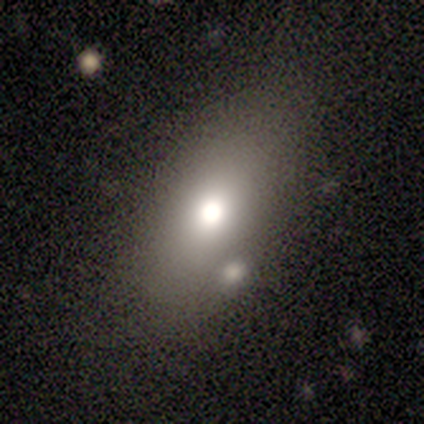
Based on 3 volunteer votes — Smooth or featured? smooth (100%)
How rounded? in between (100%)
Merging? none (67%)